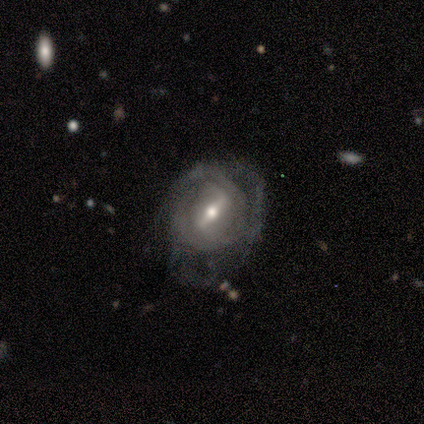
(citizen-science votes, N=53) Q: Smooth or featured?
A: featured or disk (91%); runner-up: smooth (8%)
Q: Edge-on disk?
A: no (94%); runner-up: yes (6%)
Q: Bar?
A: strong (69%); runner-up: weak (29%)
Q: Spiral arms?
A: yes (91%); runner-up: no (9%)
Q: Spiral winding?
A: tight (59%); runner-up: medium (32%)
Q: Spiral arm count?
A: 2 (37%); runner-up: can't tell (34%)
Q: Bulge size?
A: moderate (62%); runner-up: small (31%)
Q: Merging?
A: none (52%); runner-up: major disturbance (29%)